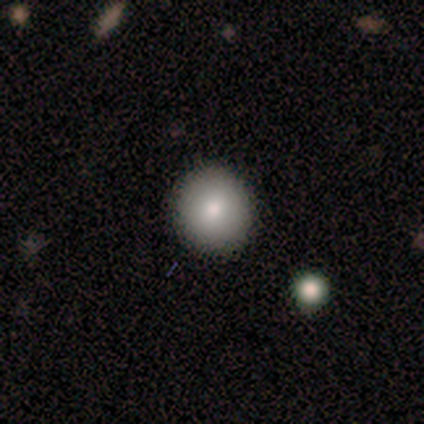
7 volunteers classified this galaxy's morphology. Q: Smooth or featured?
A: smooth (71%); runner-up: star or artifact (29%)
Q: How rounded?
A: round (100%)
Q: Merging?
A: none (100%)